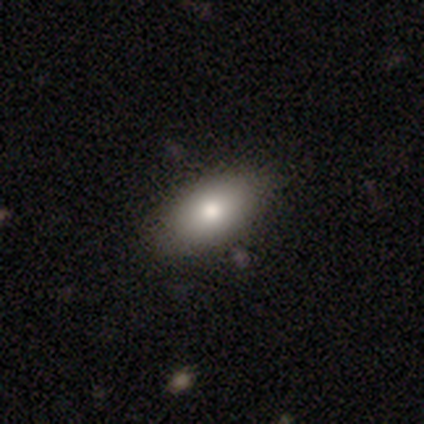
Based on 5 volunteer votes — smooth-or-featured: smooth: 80% | featured or disk: 20% | star or artifact: 0%
  how-rounded: in between: 100% | round: 0% | cigar-shaped: 0%
  merging: none: 80% | minor disturbance: 20% | major disturbance: 0% | merger: 0%